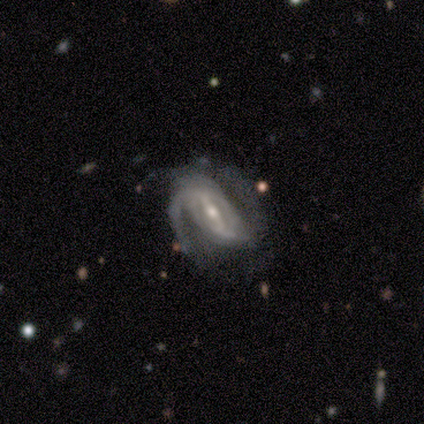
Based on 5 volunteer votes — This is clearly a featured or disk galaxy (100%). It is clearly not viewed edge-on (100%). Bar: clearly weak (80%). Spiral arm pattern: clearly yes (100%). Spiral arm count: likely 2 (60%). Spiral winding: clearly medium (80%). Central bulge: clearly moderate (80%). Merging: likely minor disturbance (60%).